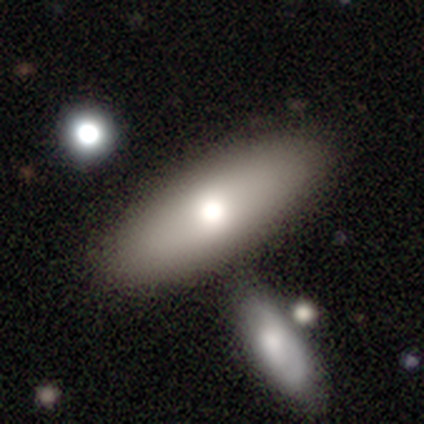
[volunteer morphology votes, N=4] Smooth or featured: smooth — 50% (tied with featured or disk — 50%)
How rounded: in between — 100%
Merging: none — 75% (minor disturbance — 25%)